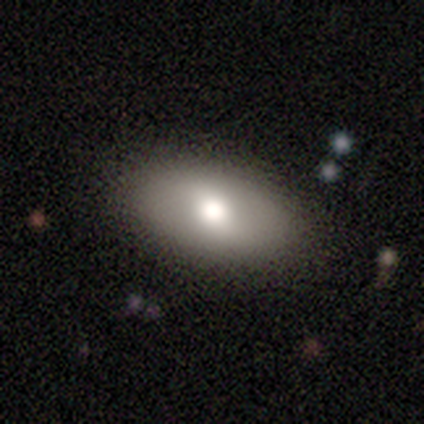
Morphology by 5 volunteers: Overall: smooth (80%). How rounded: in between (100%). Merging: none (100%).